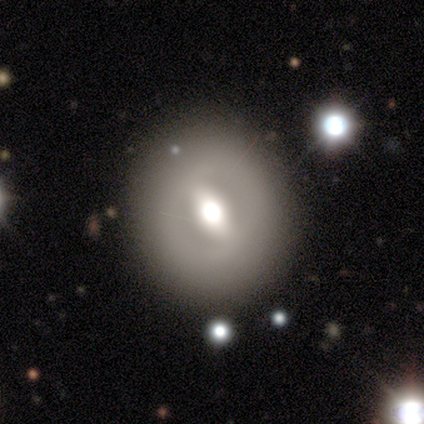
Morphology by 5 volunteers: This is marginally a smooth galaxy (40%, tied with star or artifact). How rounded: clearly round (100%). Merging: likely none (67%).